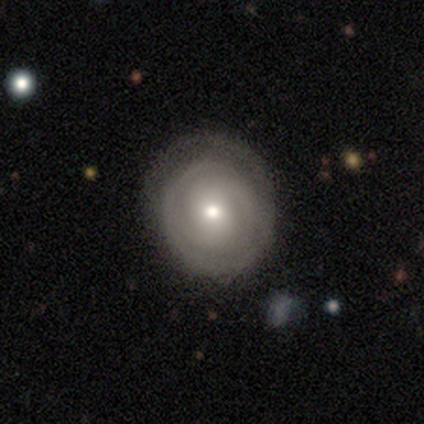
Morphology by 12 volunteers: featured or disk 83%, smooth 8%, star or artifact 8%. Down the decision tree: edge-on disk — no (100%); bar — no (60%); spiral arms — yes (70%); spiral arm count — can't tell (43%); spiral winding — tight (57%); bulge size — moderate (50%, tied with small); merging — none (82%).